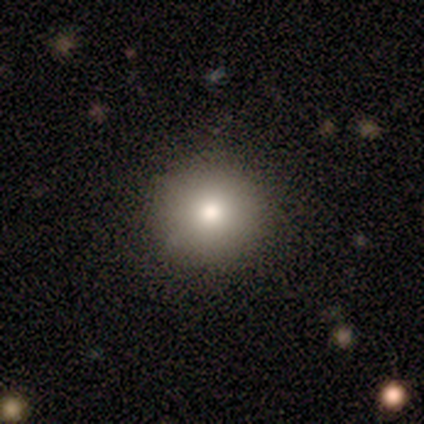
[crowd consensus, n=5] smooth-or-featured: smooth: 80% | star or artifact: 20% | featured or disk: 0%
  how-rounded: round: 100% | in between: 0% | cigar-shaped: 0%
  merging: none: 75% | minor disturbance: 25% | major disturbance: 0% | merger: 0%